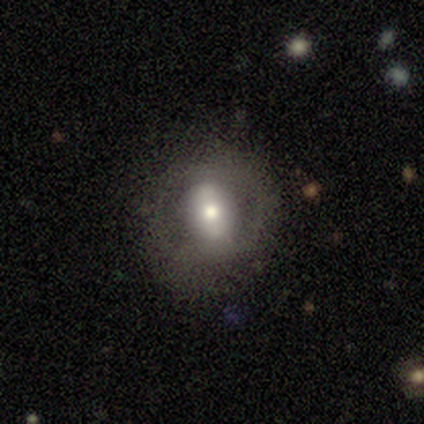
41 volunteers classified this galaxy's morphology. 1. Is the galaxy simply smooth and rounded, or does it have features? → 71% featured or disk, 20% smooth, 10% star or artifact.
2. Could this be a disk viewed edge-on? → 100% no, 0% yes.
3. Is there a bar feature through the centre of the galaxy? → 38% strong, 31% weak, 31% no.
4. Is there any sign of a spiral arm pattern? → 62% no, 38% yes.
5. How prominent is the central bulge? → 72% moderate, 14% large, 10% small, 3% dominant, 0% none.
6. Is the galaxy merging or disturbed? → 68% none, 24% minor disturbance, 5% major disturbance, 3% merger.